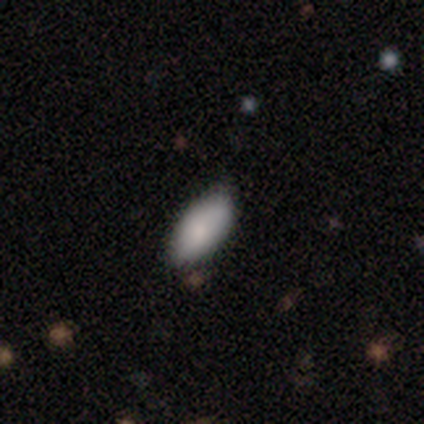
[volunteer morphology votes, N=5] Overall: smooth (100%). How rounded: in between (80%). Merging: none (80%).